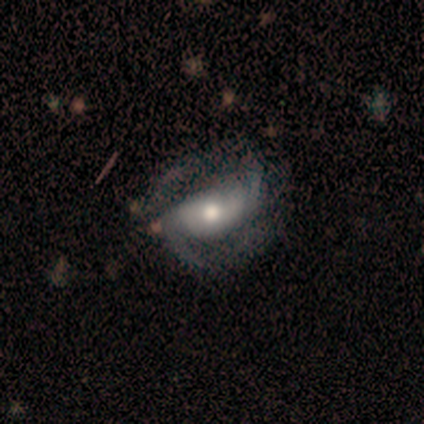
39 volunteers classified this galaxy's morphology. smooth_or_featured: featured or disk (p=0.90) [alt: smooth p=0.10]
disk_edge_on: no (p=0.91) [alt: yes p=0.09]
bar: weak (p=0.44) [alt: strong p=0.31]
has_spiral_arms: yes (p=1.00)
spiral_winding: medium (p=0.47) [alt: loose p=0.38]
spiral_arm_count: 2 (p=0.78) [alt: can't tell p=0.12]
bulge_size: moderate (p=0.59) [alt: small p=0.25]
merging: none (p=0.51) [alt: minor disturbance p=0.23]